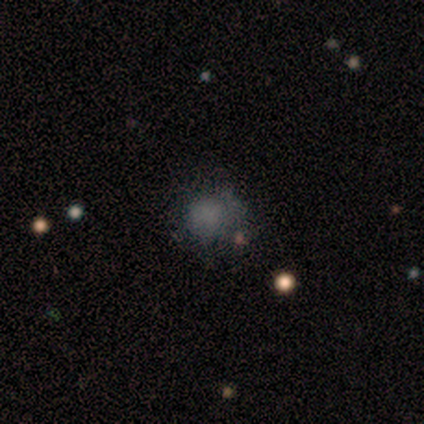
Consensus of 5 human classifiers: Smooth or featured?
  - featured or disk: 80% *
  - smooth: 20%
  - star or artifact: 0%
Edge-on disk?
  - no: 75% *
  - yes: 25%
Bar?
  - no: 100% *
  - strong: 0%
  - weak: 0%
Spiral arms?
  - no: 100% *
  - yes: 0%
Bulge size?
  - none: 100% *
  - dominant: 0%
  - large: 0%
  - moderate: 0%
  - small: 0%
Merging?
  - minor disturbance: 60% *
  - none: 20%
  - major disturbance: 20%
  - merger: 0%